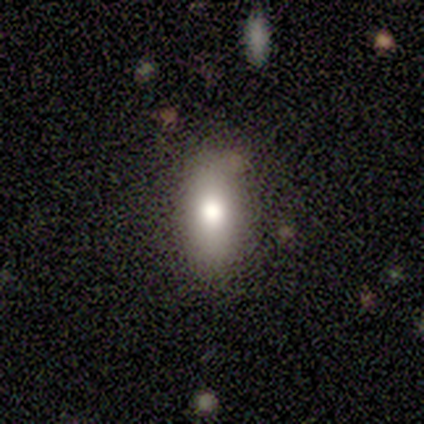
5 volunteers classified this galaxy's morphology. Smooth or featured? smooth (60%)
How rounded? in between (67%)
Merging? none (100%)